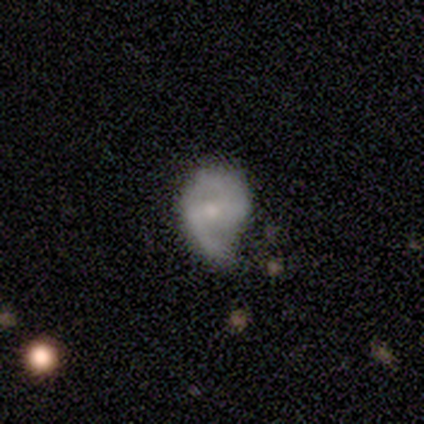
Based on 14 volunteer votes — This is possibly a featured or disk galaxy (57%). It is clearly not viewed edge-on (100%). Bar: likely weak (62%). Spiral arm pattern: clearly yes (88%). Spiral arm count: likely 2 (71%). Spiral winding: marginally medium (43%). Central bulge: likely small (75%). Merging: possibly none (46%).